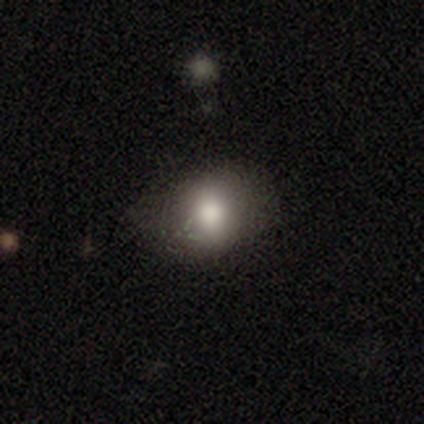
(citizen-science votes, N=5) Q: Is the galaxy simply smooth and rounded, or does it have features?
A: smooth — 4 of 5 (80%).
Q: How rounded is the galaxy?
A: round — 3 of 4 (75%).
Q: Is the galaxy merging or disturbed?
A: none — 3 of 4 (75%).